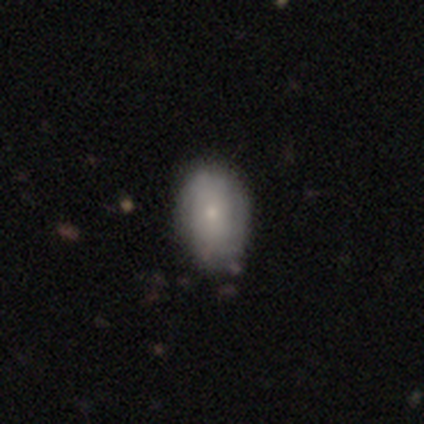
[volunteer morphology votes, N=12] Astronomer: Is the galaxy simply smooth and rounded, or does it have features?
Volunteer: smooth — 58% (runner-up: featured or disk, 42%).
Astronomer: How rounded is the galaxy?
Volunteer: in between — 71%.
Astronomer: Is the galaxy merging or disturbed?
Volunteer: none — 58% (runner-up: minor disturbance, 42%).